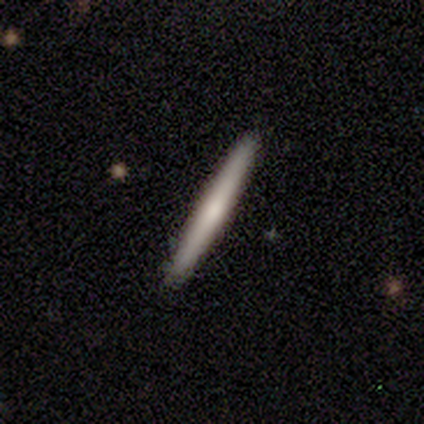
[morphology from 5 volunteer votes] smooth_or_featured: smooth (p=0.60) [alt: featured or disk p=0.40]
how_rounded: cigar-shaped (p=1.00)
merging: none (p=0.80) [alt: minor disturbance p=0.20]